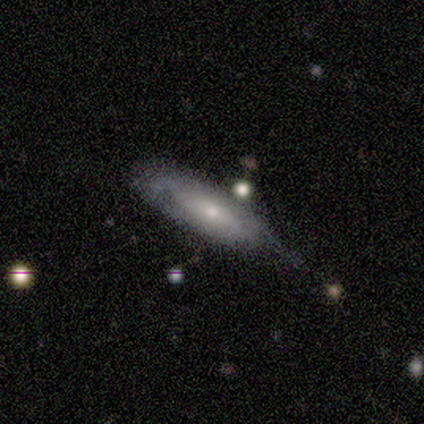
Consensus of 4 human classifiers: Smooth or featured? smooth (50%, tied with featured or disk)
How rounded? cigar-shaped (100%)
Merging? none (50%, tied with minor disturbance)